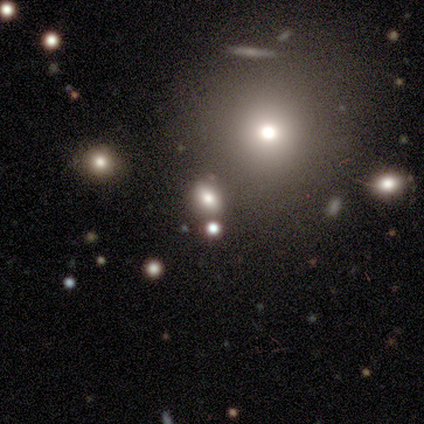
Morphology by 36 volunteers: This is possibly a smooth galaxy (58%). How rounded: possibly round (52%). Merging: likely none (75%).